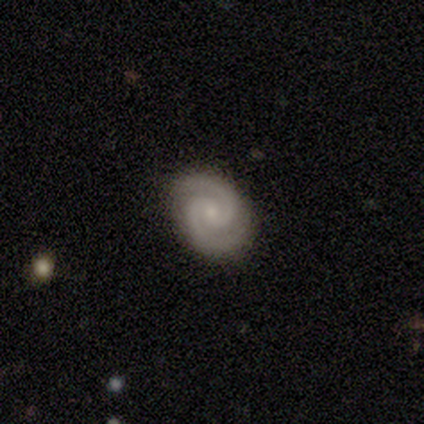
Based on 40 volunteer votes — Smooth or featured: featured or disk — 98% (smooth — 2%)
Edge-on disk: no — 100%
Bar: no — 69% (weak — 31%)
Spiral arms: yes — 100%
Spiral winding: tight — 49% (medium — 44%)
Spiral arm count: 2 — 100%
Bulge size: small — 74% (moderate — 18%)
Merging: none — 68% (minor disturbance — 2%)